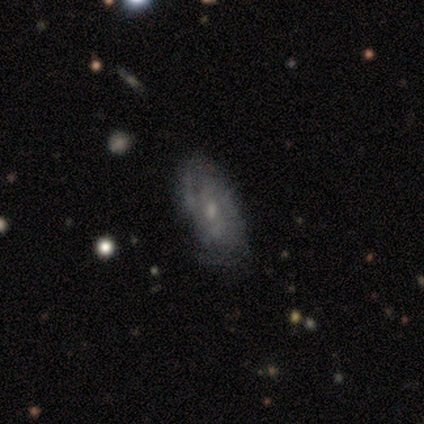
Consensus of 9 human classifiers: Q: Smooth or featured?
A: featured or disk (89%); runner-up: smooth (11%)
Q: Edge-on disk?
A: no (100%)
Q: Bar?
A: no (100%)
Q: Spiral arms?
A: yes (100%)
Q: Spiral winding?
A: tight (62%); runner-up: medium (25%)
Q: Spiral arm count?
A: 2 (50%); tied with: can't tell (50%)
Q: Bulge size?
A: small (75%); runner-up: moderate (25%)
Q: Merging?
A: none (67%); runner-up: minor disturbance (22%)